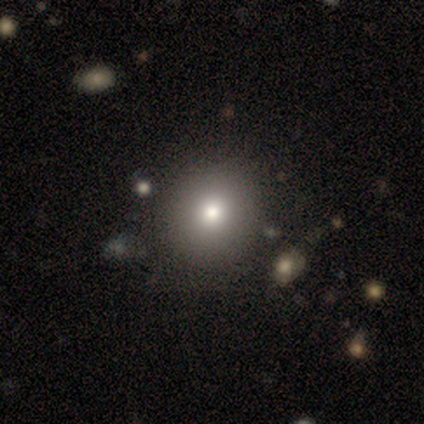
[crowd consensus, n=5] Smooth or featured?
  - smooth: 80% *
  - featured or disk: 20%
  - star or artifact: 0%
How rounded?
  - round: 100% *
  - in between: 0%
  - cigar-shaped: 0%
Merging?
  - none: 80% *
  - minor disturbance: 20%
  - major disturbance: 0%
  - merger: 0%